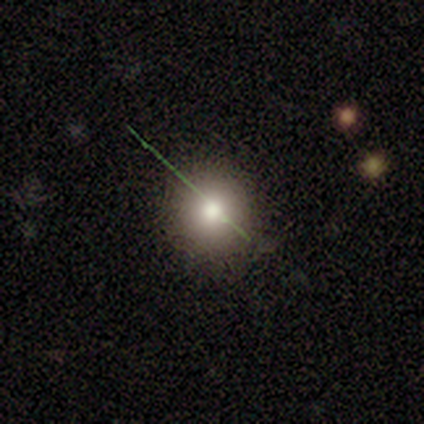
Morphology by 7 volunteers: Smooth or featured? smooth (57%)
How rounded? round (100%)
Merging? none (75%)